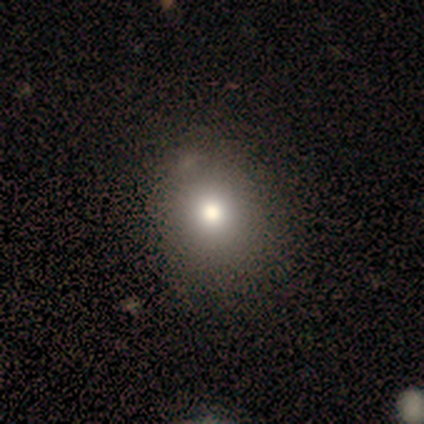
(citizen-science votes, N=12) Q: Smooth or featured?
A: smooth (92%); runner-up: star or artifact (8%)
Q: How rounded?
A: round (73%); runner-up: in between (27%)
Q: Merging?
A: none (64%); runner-up: minor disturbance (36%)